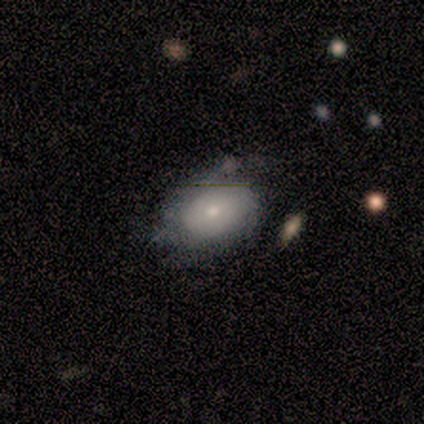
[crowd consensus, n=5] Smooth or featured?
  - smooth: 60% *
  - featured or disk: 40%
  - star or artifact: 0%
How rounded?
  - in between: 100% *
  - round: 0%
  - cigar-shaped: 0%
Merging?
  - minor disturbance: 80% *
  - none: 20%
  - major disturbance: 0%
  - merger: 0%